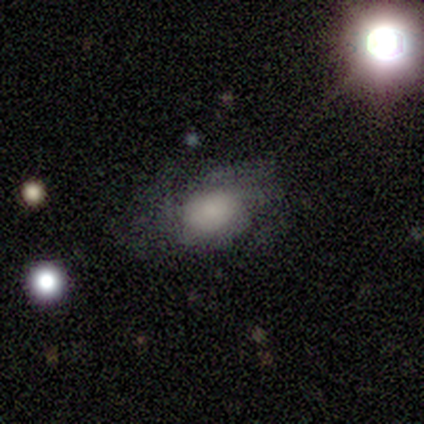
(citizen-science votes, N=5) A smooth galaxy with no disk features (80%) that is in between round and cigar-shaped (100%). Merging: minor disturbance (60%).